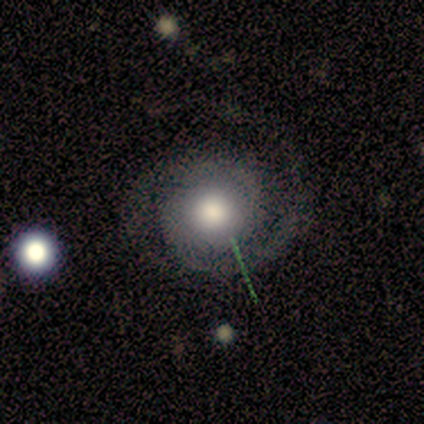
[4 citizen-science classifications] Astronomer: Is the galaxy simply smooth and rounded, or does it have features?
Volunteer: featured or disk — 75%.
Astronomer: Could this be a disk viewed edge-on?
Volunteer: no — 100%.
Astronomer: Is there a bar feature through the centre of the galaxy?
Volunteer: no — 100%.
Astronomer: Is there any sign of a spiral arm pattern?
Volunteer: yes — 100%.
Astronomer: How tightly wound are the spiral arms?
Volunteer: tight — 67%.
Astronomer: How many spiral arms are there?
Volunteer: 2 — 100%.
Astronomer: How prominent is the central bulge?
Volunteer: moderate — 100%.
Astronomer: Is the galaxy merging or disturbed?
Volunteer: none — 100%.